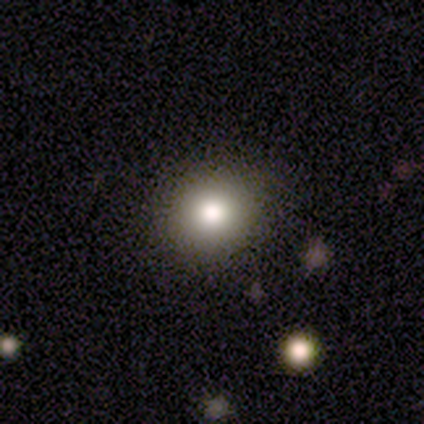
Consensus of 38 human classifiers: Smooth or featured?
  - smooth: 76% *
  - featured or disk: 13%
  - star or artifact: 11%
How rounded?
  - round: 90% *
  - in between: 10%
  - cigar-shaped: 0%
Merging?
  - none: 94% *
  - minor disturbance: 6%
  - major disturbance: 0%
  - merger: 0%